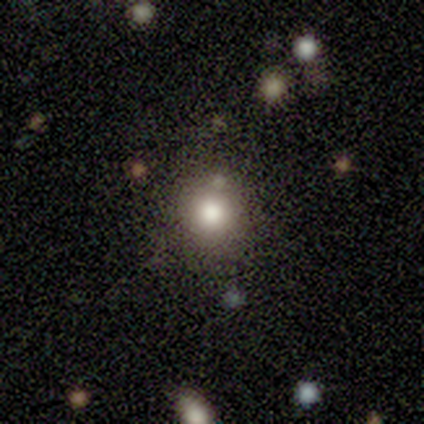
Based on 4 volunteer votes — Smooth or featured? smooth (50%)
How rounded? round (100%)
Merging? none (67%)